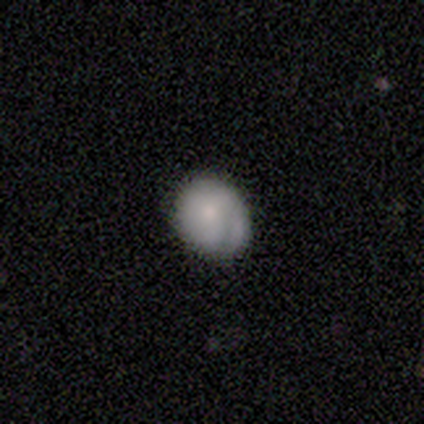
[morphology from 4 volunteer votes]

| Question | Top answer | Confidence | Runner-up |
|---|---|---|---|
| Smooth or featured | smooth | 50% | tied: featured or disk (50%) |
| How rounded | in between | 100% | — |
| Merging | none | 75% | minor disturbance (25%) |